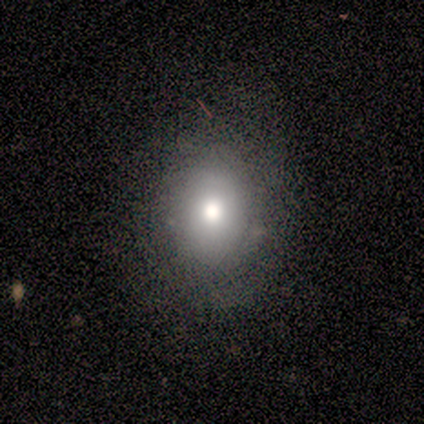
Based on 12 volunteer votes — A smooth galaxy with no disk features (58%) that is in between round and cigar-shaped (71%).

Vote fractions:
- Smooth or featured? smooth: 58% / featured or disk: 33% / star or artifact: 8%
- How rounded? in between: 71% / round: 29% / cigar-shaped: 0%
- Merging? none: 100% / minor disturbance: 0% / major disturbance: 0% / merger: 0%